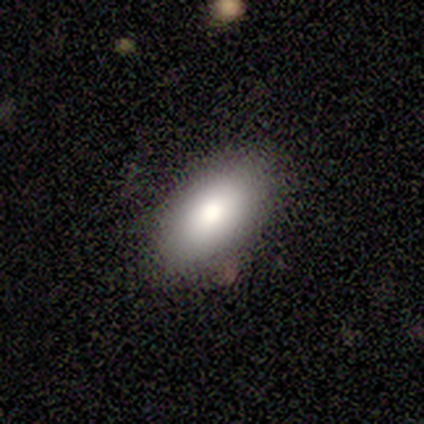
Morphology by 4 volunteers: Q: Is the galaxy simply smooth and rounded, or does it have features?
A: smooth — 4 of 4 (100%).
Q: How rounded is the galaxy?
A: in between — 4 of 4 (100%).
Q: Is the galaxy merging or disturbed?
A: none — 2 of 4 (50%, tied with minor disturbance).